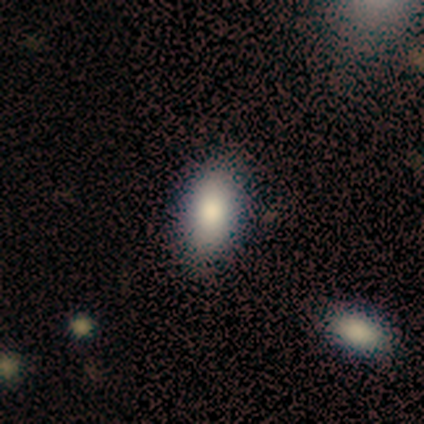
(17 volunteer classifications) Smooth or featured? smooth (100%)
How rounded? in between (88%)
Merging? none (82%)